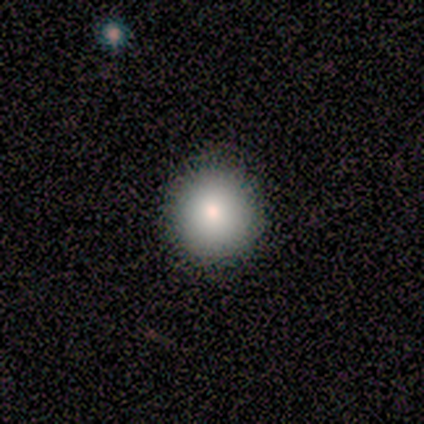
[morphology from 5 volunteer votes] Smooth or featured? smooth (100%)
How rounded? round (100%)
Merging? none (100%)